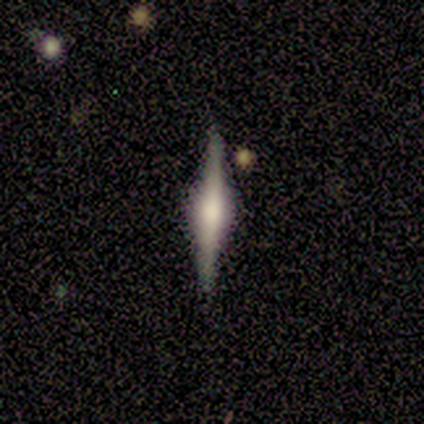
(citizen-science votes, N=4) A featured or disk galaxy (75%) viewed edge-on (100%) with a rounded central bulge (100%).

Vote fractions:
- Smooth or featured? featured or disk: 75% / star or artifact: 25% / smooth: 0%
- Edge-on disk? yes: 100% / no: 0%
- Edge-on bulge? rounded: 100% / boxy: 0% / none: 0%
- Merging? none: 67% / merger: 33% / minor disturbance: 0% / major disturbance: 0%